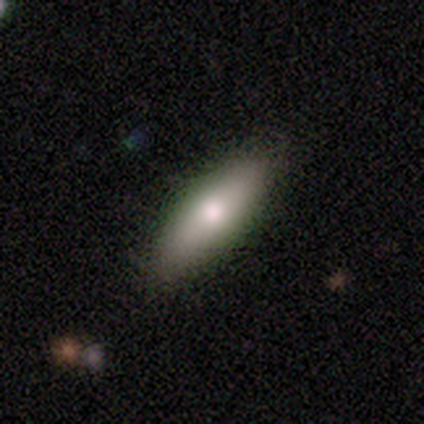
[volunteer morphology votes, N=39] type=smooth (77%); roundness=cigar-shaped (53%); merging=none (87%).